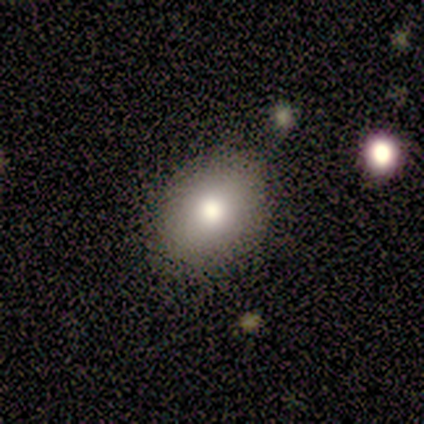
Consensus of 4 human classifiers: Smooth or featured? smooth (75%)
How rounded? in between (67%)
Merging? none (100%)